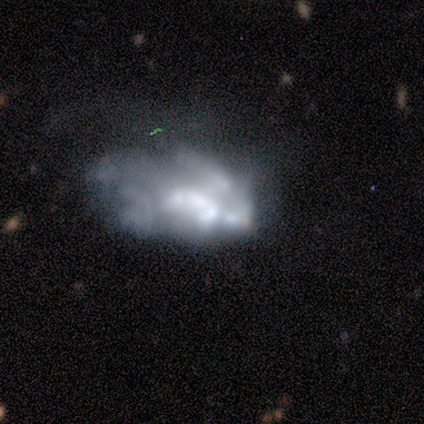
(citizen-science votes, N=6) Volunteers were most divided on "bulge size": none: 40%, dominant: 20%, moderate: 20%, small: 20%, large: 0%. More confident: edge-on disk — no (100%); bar — no (100%); smooth or featured — featured or disk (83%); spiral arms — no (80%); merging — major disturbance (80%).